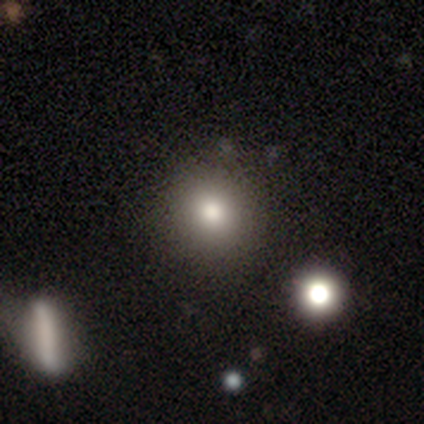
Volunteers were most divided on "merging": none: 44%, merger: 9%, minor disturbance: 2%, major disturbance: 0%. More confident: how rounded — round (90%); smooth or featured — smooth (73%).